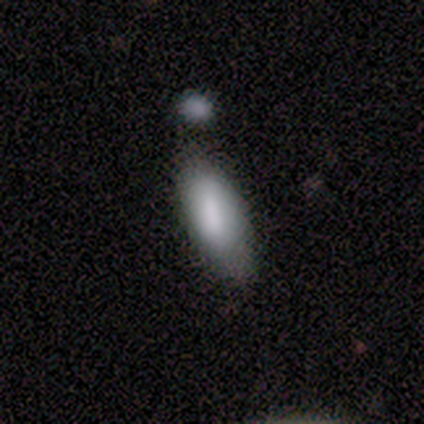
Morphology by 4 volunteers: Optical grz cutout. It shows a smooth galaxy with no disk features (75%) that is in between round and cigar-shaped (100%). Merging: none (100%).